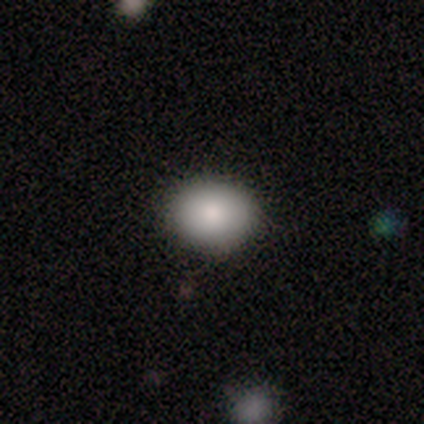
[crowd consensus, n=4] Smooth or featured: smooth — 75% (star or artifact — 25%)
How rounded: in between — 67% (round — 33%)
Merging: none — 100%